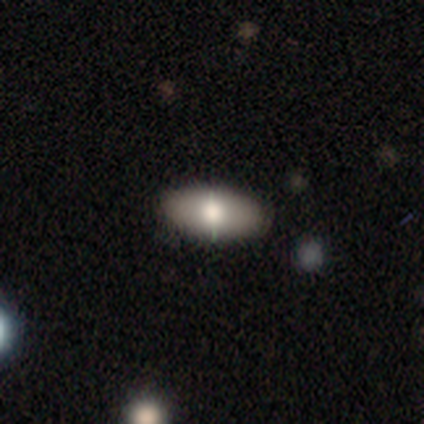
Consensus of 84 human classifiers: A smooth galaxy with no disk features (73%) that is in between round and cigar-shaped (92%). Merging: none (85%).